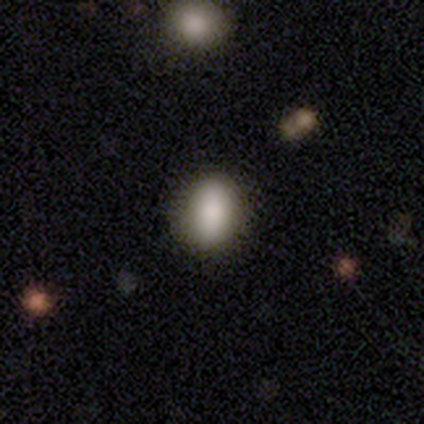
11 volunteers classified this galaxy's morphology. Smooth or featured?
  - smooth: 100% *
  - featured or disk: 0%
  - star or artifact: 0%
How rounded?
  - in between: 55% *
  - round: 45%
  - cigar-shaped: 0%
Merging?
  - none: 91% *
  - minor disturbance: 9%
  - major disturbance: 0%
  - merger: 0%